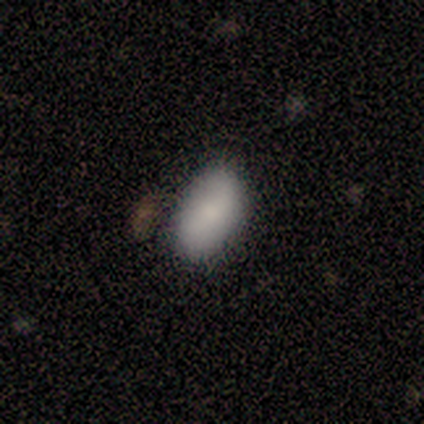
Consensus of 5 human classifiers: A smooth galaxy with no disk features (80%) that is in between round and cigar-shaped (75%). Merging: none (80%).